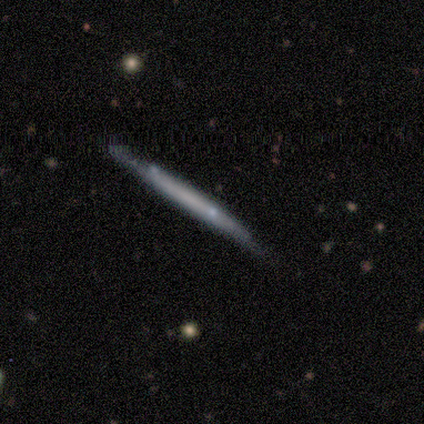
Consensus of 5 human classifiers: smooth-or-featured: featured or disk: 80% | smooth: 20% | star or artifact: 0%
  disk-edge-on: yes: 100% | no: 0%
    edge-on-bulge: none: 100% | boxy: 0% | rounded: 0%
  merging: none: 60% | minor disturbance: 40% | major disturbance: 0% | merger: 0%